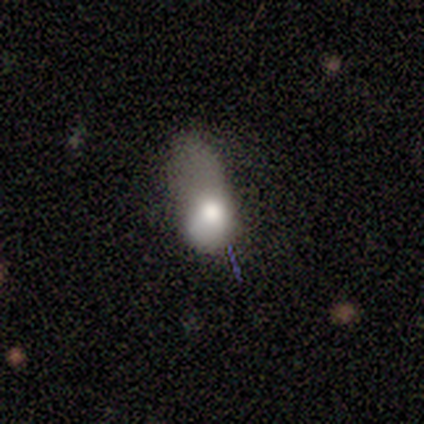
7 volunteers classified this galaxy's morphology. type=smooth (57%); roundness=round (50%, tied with in between); merging=minor disturbance (33%, tied with major disturbance).